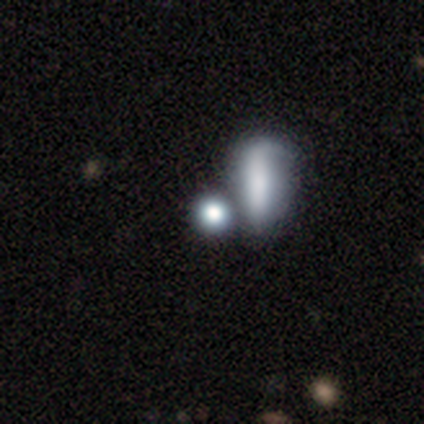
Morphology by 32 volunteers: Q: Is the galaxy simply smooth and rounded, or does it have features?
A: smooth — 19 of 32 (59%).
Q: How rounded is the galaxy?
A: round — 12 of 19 (63%).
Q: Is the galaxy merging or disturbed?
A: merger — 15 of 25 (60%).